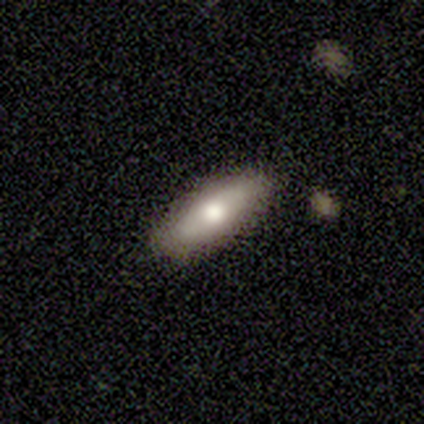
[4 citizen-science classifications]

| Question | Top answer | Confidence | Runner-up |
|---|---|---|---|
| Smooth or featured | smooth | 75% | featured or disk (25%) |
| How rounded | in between | 100% | — |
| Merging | none | 100% | — |